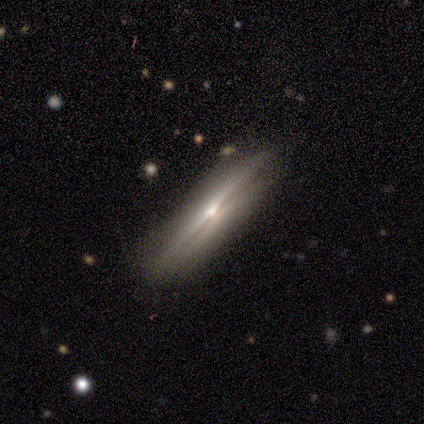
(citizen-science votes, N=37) Smooth or featured? 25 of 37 (68%) said featured or disk. Edge-on disk? 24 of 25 (96%) said yes. Edge-on bulge? 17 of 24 (71%) said rounded. Merging? 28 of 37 (76%) said none.